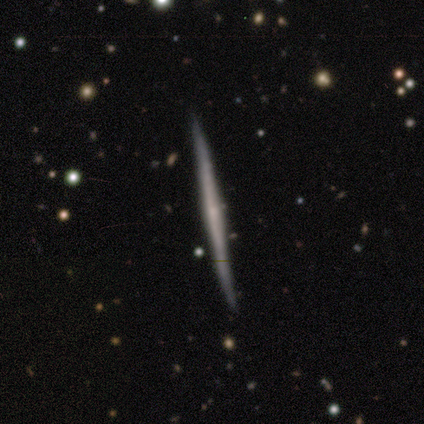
Smooth or featured? 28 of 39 (72%) said featured or disk. Edge-on disk? 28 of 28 (100%) said yes. Edge-on bulge? 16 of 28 (57%) said none. Merging? 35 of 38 (92%) said none.